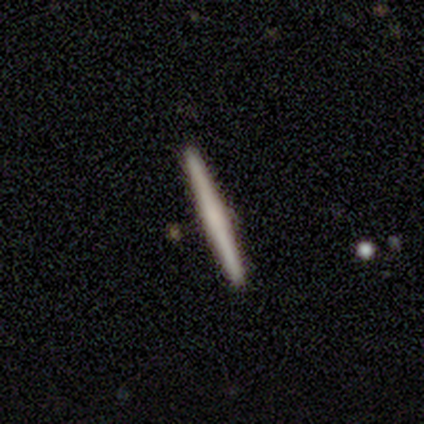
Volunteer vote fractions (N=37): A smooth galaxy with no disk features (57%) that is cigar-shaped (100%).

Vote fractions:
- Smooth or featured? smooth: 57% / featured or disk: 35% / star or artifact: 8%
- How rounded? cigar-shaped: 100% / round: 0% / in between: 0%
- Merging? none: 91% / major disturbance: 6% / minor disturbance: 3% / merger: 0%